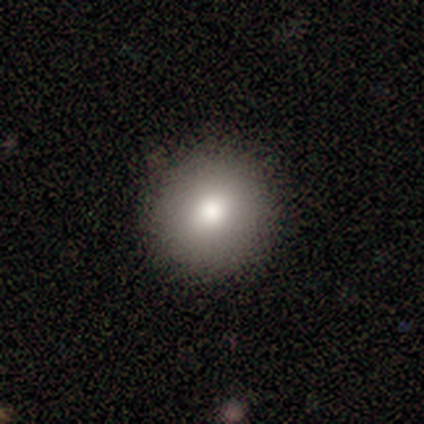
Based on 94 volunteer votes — This appears to be a smooth galaxy with no disk features (81%) that is round (95%). Merging: none (94%).